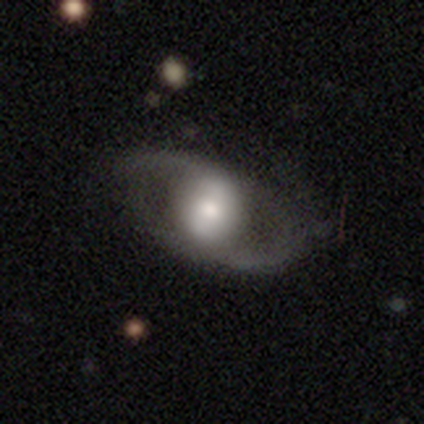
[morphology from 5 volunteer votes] Smooth or featured? 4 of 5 (80%) said featured or disk. Edge-on disk? 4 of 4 (100%) said no. Bar? 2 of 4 (50%) said weak. Spiral arms? 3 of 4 (75%) said no. Bulge size? 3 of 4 (75%) said moderate. Merging? 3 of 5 (60%) said minor disturbance.